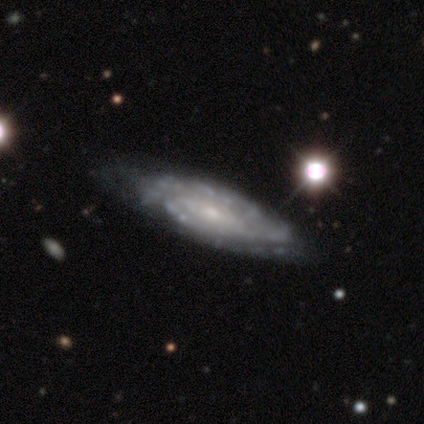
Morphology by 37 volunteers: Volunteers were most divided on "spiral arm count": can't tell: 42%, 2: 35%, 3: 10%, 4: 10%, 1: 3%, more than 4: 0%. More confident: edge-on disk — no (97%); smooth or featured — featured or disk (95%); spiral arms — yes (91%); bulge size — small (76%); merging — none (62%); bar — no (59%); spiral winding — tight (55%).